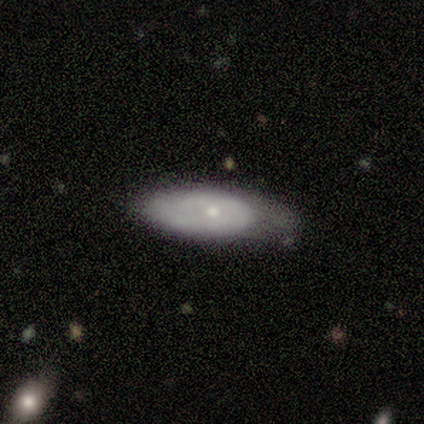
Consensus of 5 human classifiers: A smooth galaxy with no disk features (80%) that is in between round and cigar-shaped (75%). Merging: major disturbance (40%).